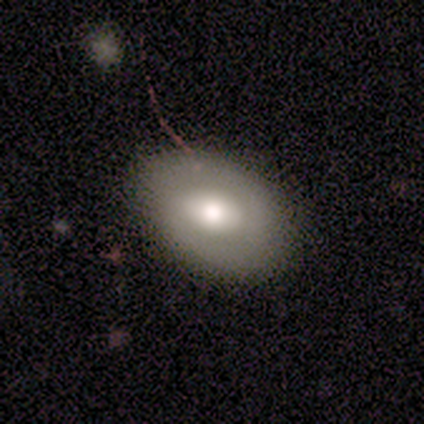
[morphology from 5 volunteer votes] featured or disk 80%, smooth 20%, star or artifact 0%. Down the decision tree: edge-on disk — no (75%); bar — weak (67%); spiral arms — no (67%); bulge size — moderate (67%); merging — none (60%).